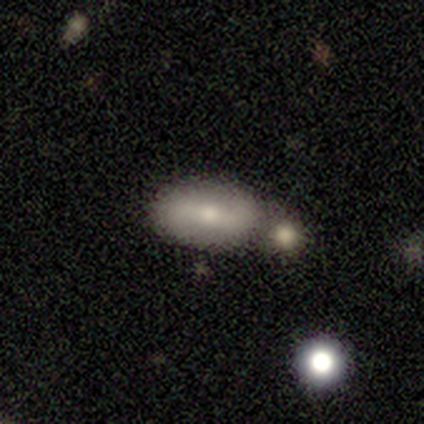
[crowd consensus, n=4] smooth_or_featured: smooth (p=0.75) [alt: featured or disk p=0.25]
how_rounded: in between (p=1.00)
merging: none (p=0.50) [tied with: merger p=0.50]